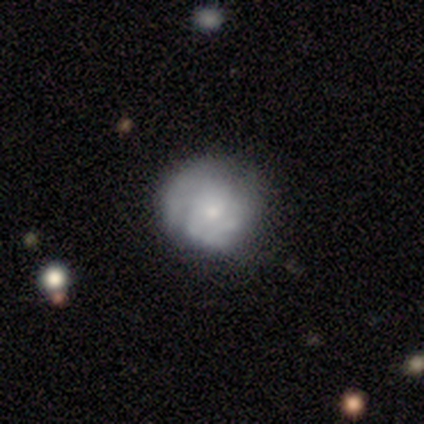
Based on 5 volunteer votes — Overall: smooth (80%). How rounded: round (100%). Merging: none (80%).